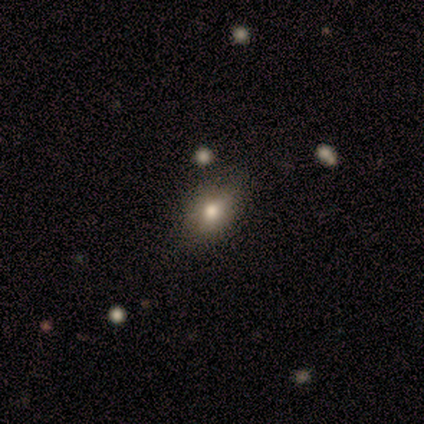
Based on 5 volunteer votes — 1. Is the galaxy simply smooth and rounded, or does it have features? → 80% smooth, 20% star or artifact, 0% featured or disk.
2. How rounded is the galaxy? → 75% in between, 25% cigar-shaped, 0% round.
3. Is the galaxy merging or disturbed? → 50% none (tied), 50% minor disturbance (tied), 0% major disturbance, 0% merger.